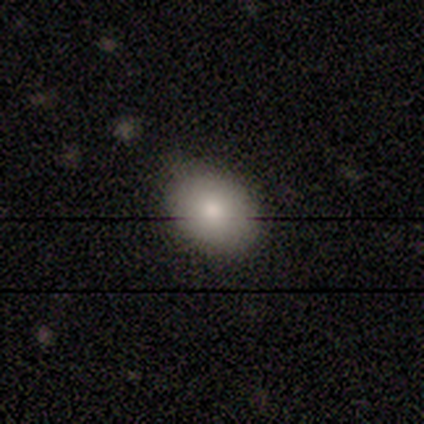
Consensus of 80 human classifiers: This appears to be a smooth galaxy with no disk features (86%) that is in between round and cigar-shaped (64%). Merging: none (40%).